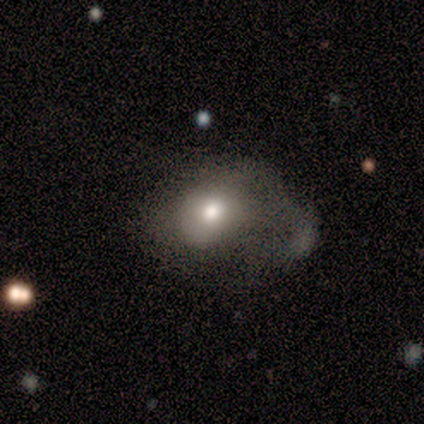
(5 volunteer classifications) Q: Smooth or featured?
A: smooth (80%); runner-up: featured or disk (20%)
Q: How rounded?
A: round (50%); tied with: in between (50%)
Q: Merging?
A: major disturbance (60%); runner-up: none (20%)